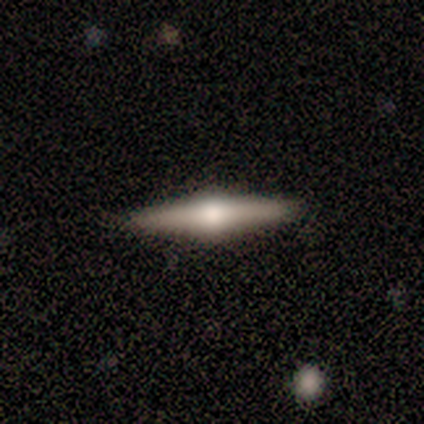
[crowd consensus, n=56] Volunteers were most divided on "smooth or featured": featured or disk: 79%, smooth: 21%, star or artifact: 0%. More confident: edge-on disk — yes (100%); edge-on bulge — rounded (98%); merging — none (93%).